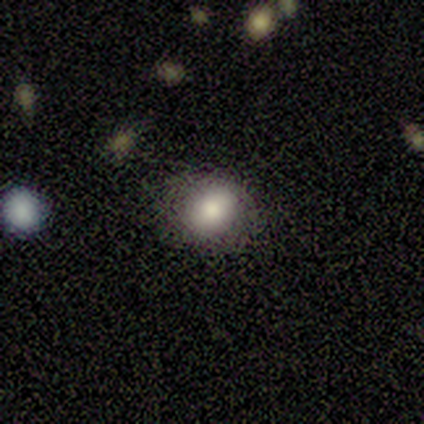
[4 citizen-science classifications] A smooth galaxy with no disk features (100%) that is round (50%, tied with in between).

Vote fractions:
- Smooth or featured? smooth: 100% / featured or disk: 0% / star or artifact: 0%
- How rounded? round: 50% (tied) / in between: 50% (tied) / cigar-shaped: 0%
- Merging? none: 100% / minor disturbance: 0% / major disturbance: 0% / merger: 0%